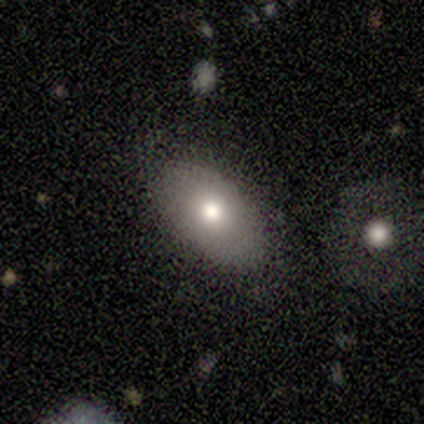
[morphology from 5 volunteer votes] Smooth or featured: smooth — 60% (featured or disk — 20%)
How rounded: in between — 100%
Merging: none — 100%